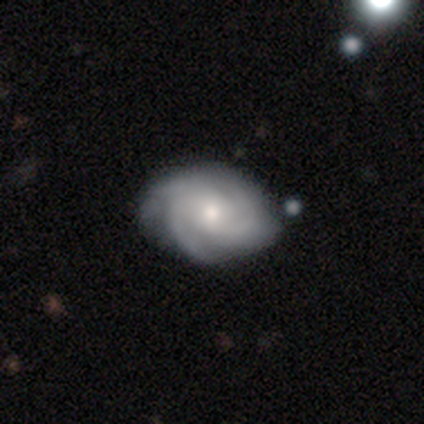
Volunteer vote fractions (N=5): This appears to be a featured or disk galaxy (80%) with no bar (75%), 3 (100%) tight (75%) spiral arms (100%) and a moderate central bulge (50%, tied with small). Merging: none (100%).